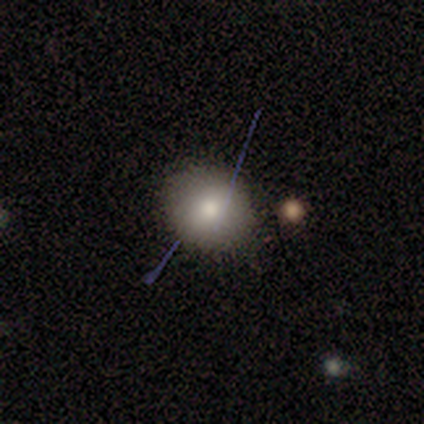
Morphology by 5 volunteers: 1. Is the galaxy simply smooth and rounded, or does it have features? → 40% smooth (tied), 40% star or artifact (tied), 20% featured or disk.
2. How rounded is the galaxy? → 100% round, 0% in between, 0% cigar-shaped.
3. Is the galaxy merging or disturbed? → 100% none, 0% minor disturbance, 0% major disturbance, 0% merger.